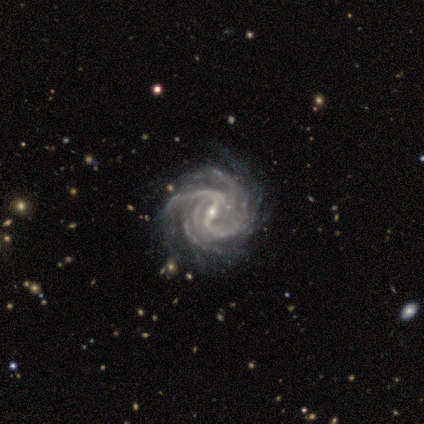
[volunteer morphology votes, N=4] smooth-or-featured: featured or disk: 100% | smooth: 0% | star or artifact: 0%
  disk-edge-on: no: 100% | yes: 0%
    bar: strong: 50% | weak: 25% | no: 25%
    has-spiral-arms: yes: 100% | no: 0%
      spiral-winding: medium: 50% | tight: 25% | loose: 25%
      spiral-arm-count: more than 4: 50% | 4: 25% | can't tell: 25% | 1: 0% | 2: 0% | 3: 0%
    bulge-size: small: 75% | moderate: 25% | dominant: 0% | large: 0% | none: 0%
  merging: major disturbance: 50% | none: 25% | minor disturbance: 25% | merger: 0%